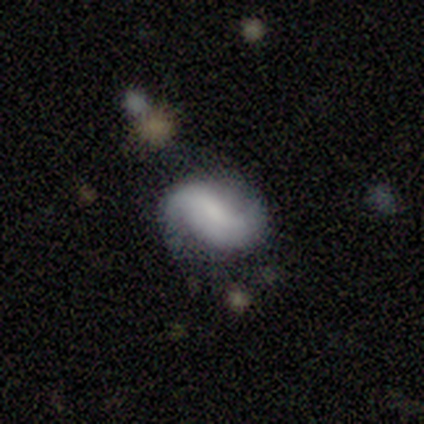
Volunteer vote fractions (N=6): Morphology: type=featured or disk (50%); edge-on=no (100%); bar=strong (33%, tied with weak and no); spiral arms=yes (100%); winding=loose (67%); arm count=2 (67%); bulge=none (100%); merging=none (80%).